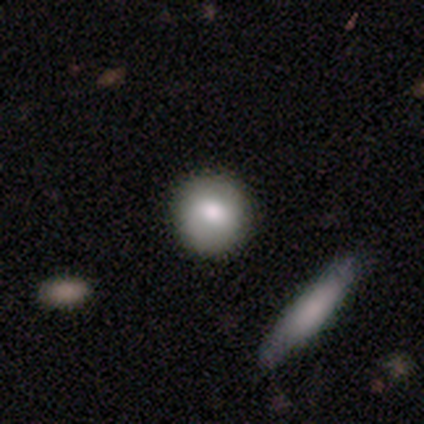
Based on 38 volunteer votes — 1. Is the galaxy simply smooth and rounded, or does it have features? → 84% smooth, 13% featured or disk, 3% star or artifact.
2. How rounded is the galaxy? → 97% round, 3% cigar-shaped, 0% in between.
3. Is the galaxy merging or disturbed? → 92% none, 5% minor disturbance, 3% merger, 0% major disturbance.